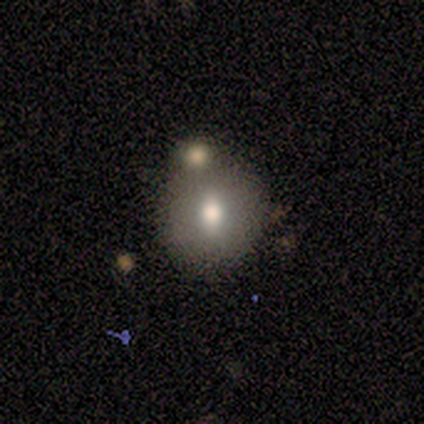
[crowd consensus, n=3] Smooth or featured? 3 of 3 (100%) said smooth. How rounded? 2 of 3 (67%) said in between. Merging? 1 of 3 (33%, tied with minor disturbance and merger) said none.